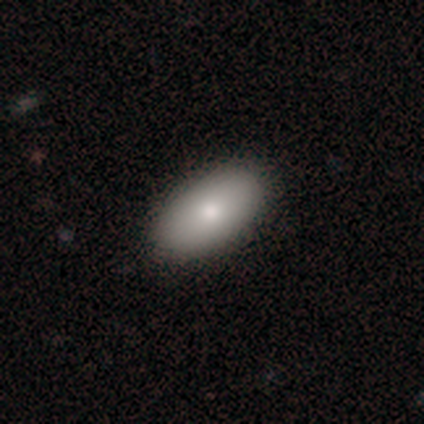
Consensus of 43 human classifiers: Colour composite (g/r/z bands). It shows a smooth galaxy with no disk features (88%) that is in between round and cigar-shaped (97%). Merging: none (58%).